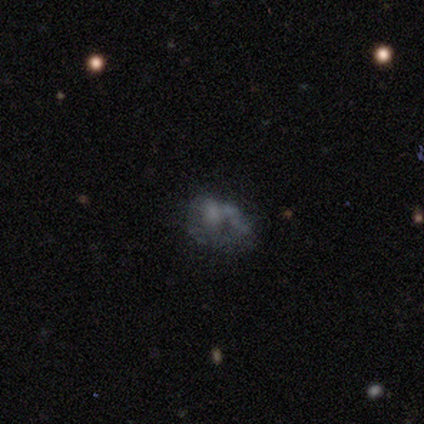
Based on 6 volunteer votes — smooth_or_featured: featured or disk (p=0.50) [alt: smooth p=0.33]
disk_edge_on: no (p=1.00)
bar: no (p=1.00)
has_spiral_arms: no (p=0.67) [alt: yes p=0.33]
bulge_size: none (p=1.00)
merging: minor disturbance (p=0.60) [alt: none p=0.20]